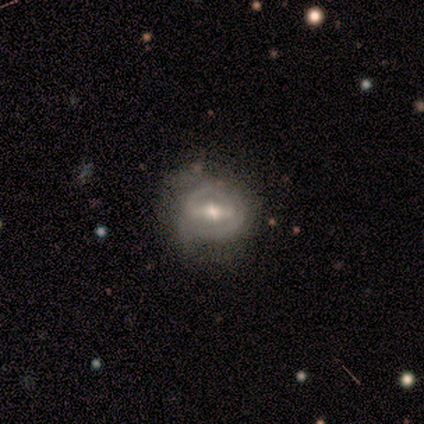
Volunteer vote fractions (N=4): Morphology: type=featured or disk (50%); edge-on=no (100%); bar=strong (50%, tied with weak); spiral arms=yes (100%); winding=tight (50%, tied with loose); arm count=2 (50%, tied with can't tell); bulge=small (100%); merging=none (100%).